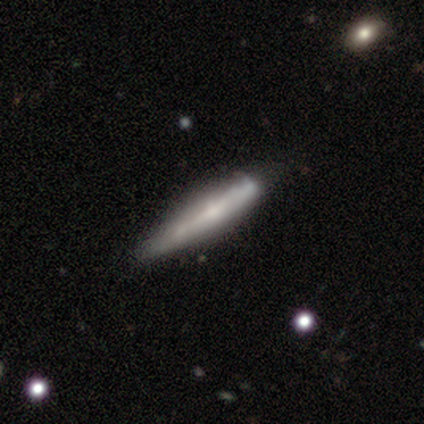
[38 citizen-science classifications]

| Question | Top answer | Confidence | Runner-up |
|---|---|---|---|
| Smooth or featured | featured or disk | 55% | smooth (39%) |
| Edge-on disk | yes | 95% | no (5%) |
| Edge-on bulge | rounded | 50% | none (35%) |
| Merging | none | 44% | minor disturbance (25%) |